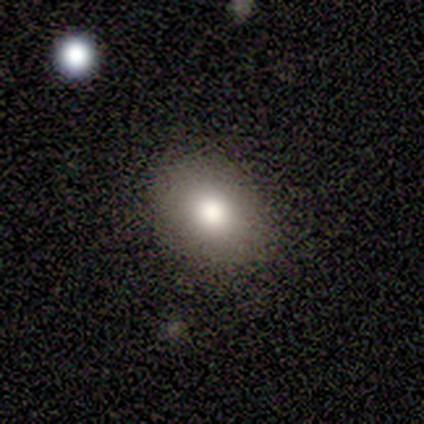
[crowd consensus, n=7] smooth 71%, featured or disk 29%, star or artifact 0%. Down the decision tree: how rounded — in between (60%); merging — none (100%).